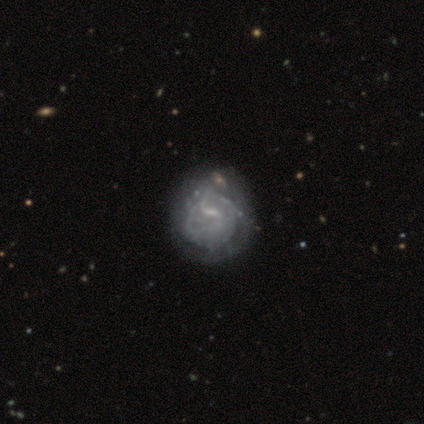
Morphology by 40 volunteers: Smooth or featured: featured or disk — 90% (smooth — 8%)
Edge-on disk: no — 100%
Bar: weak — 64% (no — 19%)
Spiral arms: yes — 81% (no — 19%)
Spiral winding: tight — 45% (medium — 34%)
Spiral arm count: can't tell — 41% (2 — 38%)
Bulge size: small — 58% (none — 28%)
Merging: none — 36% (minor disturbance — 26%)